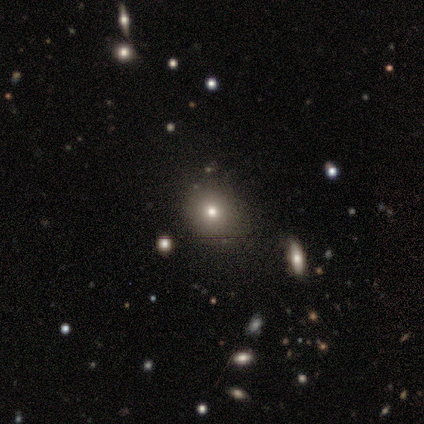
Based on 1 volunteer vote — Consensus on every question: smooth or featured — smooth (100%); how rounded — round (100%); merging — none (100%).